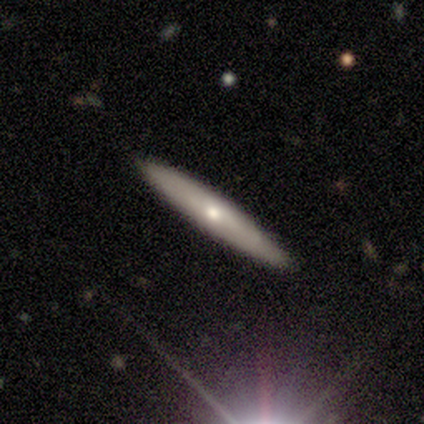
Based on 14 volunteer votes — smooth-or-featured: featured or disk: 57% | smooth: 43% | star or artifact: 0%
  disk-edge-on: yes: 88% | no: 12%
    edge-on-bulge: rounded: 71% | none: 29% | boxy: 0%
  merging: none: 86% | minor disturbance: 14% | major disturbance: 0% | merger: 0%